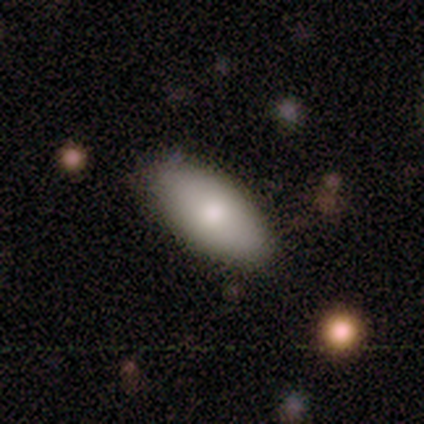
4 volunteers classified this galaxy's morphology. Volunteers were most divided on "smooth or featured": smooth: 75%, featured or disk: 25%, star or artifact: 0%. More confident: how rounded — in between (100%); merging — none (75%).